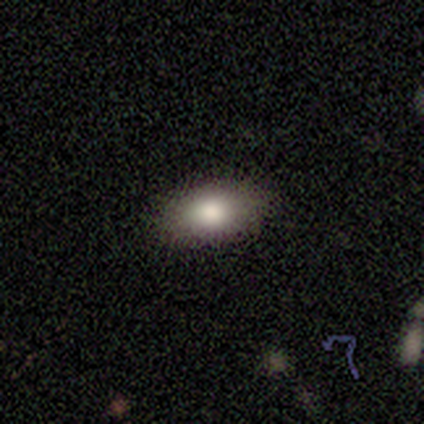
Smooth or featured? smooth (80%)
How rounded? in between (100%)
Merging? none (80%)